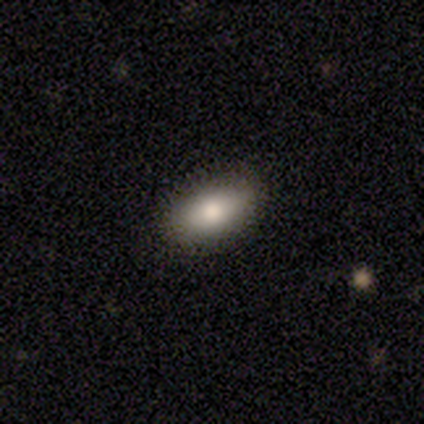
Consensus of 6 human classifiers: smooth_or_featured: smooth (p=0.67) [alt: featured or disk p=0.33]
how_rounded: in between (p=1.00)
merging: none (p=0.67) [alt: minor disturbance p=0.33]